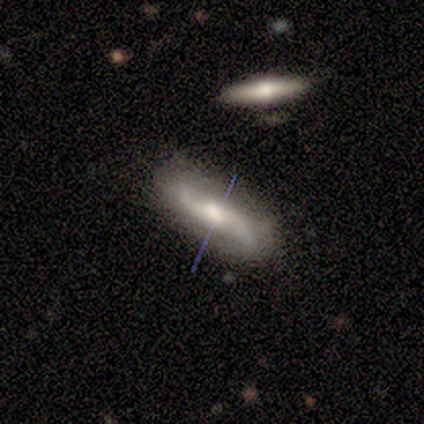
Smooth or featured?
  - featured or disk: 80% *
  - smooth: 20%
  - star or artifact: 0%
Edge-on disk?
  - no: 100% *
  - yes: 0%
Bar?
  - weak: 50% * (tied)
  - no: 50% * (tied)
  - strong: 0%
Spiral arms?
  - yes: 100% *
  - no: 0%
Spiral winding?
  - medium: 50% * (tied)
  - loose: 50% * (tied)
  - tight: 0%
Spiral arm count?
  - 2: 100% *
  - 1: 0%
  - 3: 0%
  - 4: 0%
  - more than 4: 0%
  - can't tell: 0%
Bulge size?
  - moderate: 100% *
  - dominant: 0%
  - large: 0%
  - small: 0%
  - none: 0%
Merging?
  - none: 80% *
  - minor disturbance: 20%
  - major disturbance: 0%
  - merger: 0%